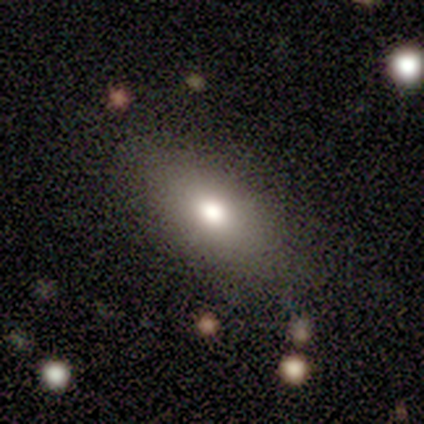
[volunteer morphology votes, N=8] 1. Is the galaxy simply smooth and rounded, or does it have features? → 88% smooth, 12% featured or disk, 0% star or artifact.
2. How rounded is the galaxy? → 86% in between, 14% round, 0% cigar-shaped.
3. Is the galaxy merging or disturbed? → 75% none, 12% minor disturbance, 12% major disturbance, 0% merger.